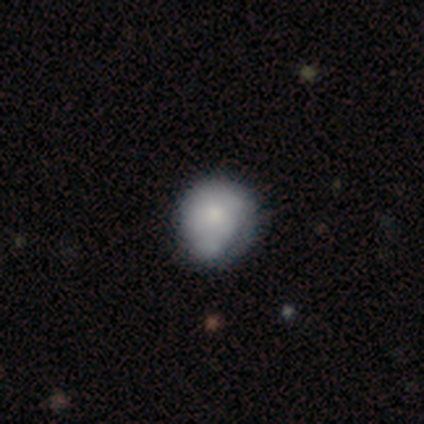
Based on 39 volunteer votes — Volunteers were most divided on "merging": minor disturbance: 46%, none: 18%, merger: 10%, major disturbance: 3%. More confident: how rounded — round (85%); smooth or featured — smooth (69%).